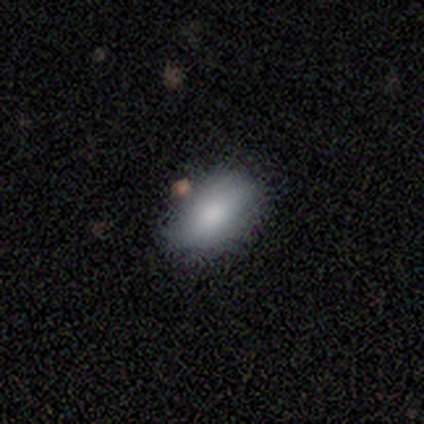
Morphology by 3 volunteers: Smooth or featured?
  - smooth: 67% *
  - featured or disk: 33%
  - star or artifact: 0%
How rounded?
  - in between: 100% *
  - round: 0%
  - cigar-shaped: 0%
Merging?
  - none: 67% *
  - major disturbance: 33%
  - minor disturbance: 0%
  - merger: 0%